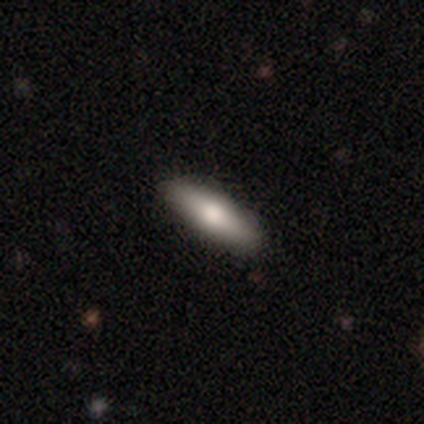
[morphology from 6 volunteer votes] smooth-or-featured: smooth: 50% (tied) | featured or disk: 50% (tied) | star or artifact: 0%
  how-rounded: in between: 67% | cigar-shaped: 33% | round: 0%
  merging: none: 83% | minor disturbance: 17% | major disturbance: 0% | merger: 0%